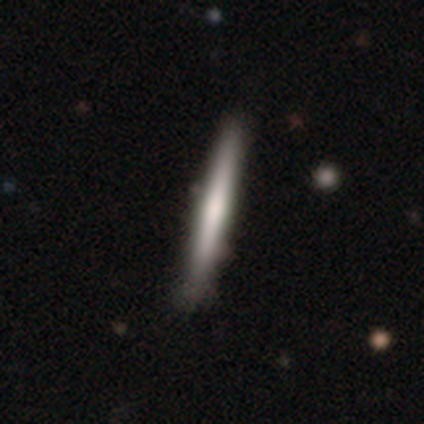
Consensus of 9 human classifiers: Smooth or featured: smooth — 67% (featured or disk — 33%)
How rounded: cigar-shaped — 100%
Merging: none — 89% (minor disturbance — 11%)